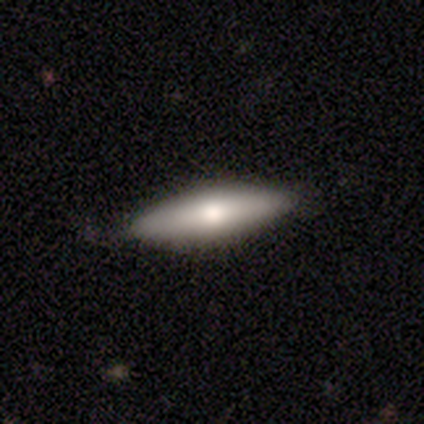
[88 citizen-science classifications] Q: Smooth or featured?
A: smooth (59%); runner-up: featured or disk (38%)
Q: How rounded?
A: cigar-shaped (58%); runner-up: in between (42%)
Q: Merging?
A: none (84%); runner-up: minor disturbance (14%)